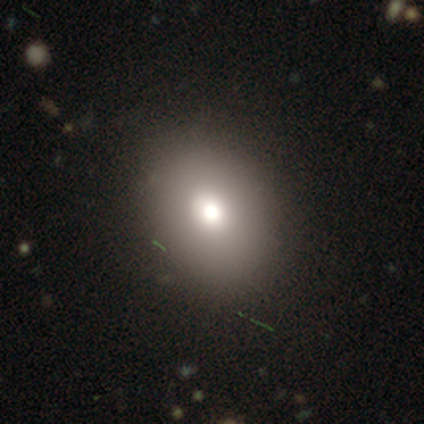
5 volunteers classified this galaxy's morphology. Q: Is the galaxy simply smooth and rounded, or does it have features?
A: smooth — 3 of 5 (60%).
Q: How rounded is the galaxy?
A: in between — 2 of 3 (67%).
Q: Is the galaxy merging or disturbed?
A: none — 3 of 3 (100%).